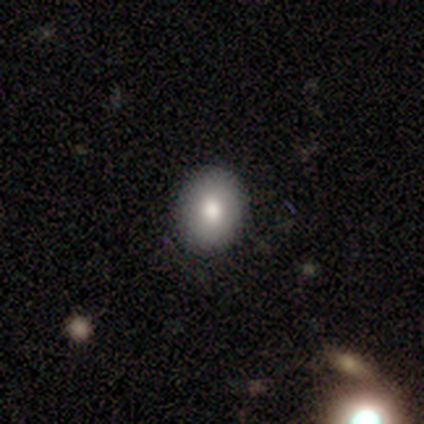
smooth 75%, featured or disk 25%, star or artifact 0%. Down the decision tree: how rounded — in between (67%); merging — none (100%).